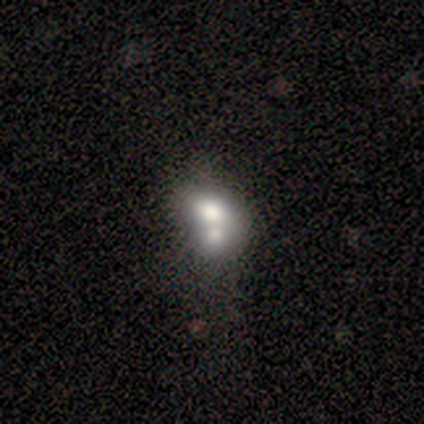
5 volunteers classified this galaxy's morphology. Volunteers were most divided on "bulge size" (3-way tie): dominant: 33%, large: 33%, none: 33%, moderate: 0%, small: 0%. More confident: edge-on disk — no (100%); bar — no (100%); spiral arms — no (100%); merging — merger (80%); smooth or featured — featured or disk (60%).